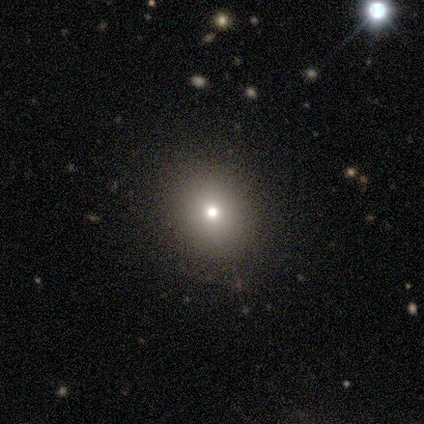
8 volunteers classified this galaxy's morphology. This appears to be a smooth galaxy with no disk features (62%) that is in between round and cigar-shaped (60%). Merging: none (60%).